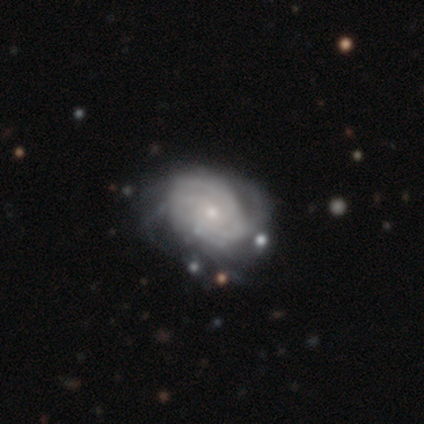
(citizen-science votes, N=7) Overall: featured or disk (86%). Edge-on disk: no (100%). Bar: no (100%). Spiral arms: yes (100%). Spiral arm count: can't tell (83%). Spiral winding: tight (50%; medium 33%). Bulge size: small (100%). Merging: none (43%, tied with major disturbance).